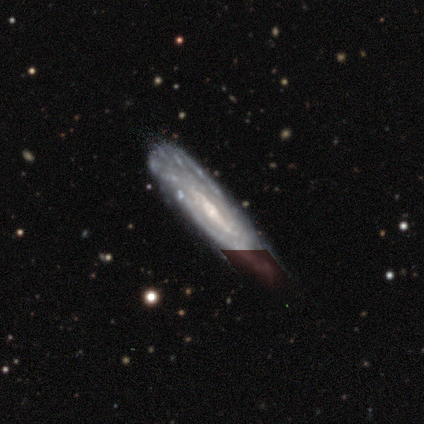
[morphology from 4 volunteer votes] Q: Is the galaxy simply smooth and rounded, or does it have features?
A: featured or disk — 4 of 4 (100%).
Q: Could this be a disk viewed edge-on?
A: no — 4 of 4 (100%).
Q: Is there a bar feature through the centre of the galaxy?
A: weak — 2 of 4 (50%, tied with no).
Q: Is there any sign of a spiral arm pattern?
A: yes — 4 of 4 (100%).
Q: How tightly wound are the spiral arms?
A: tight — 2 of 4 (50%).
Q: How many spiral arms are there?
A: can't tell — 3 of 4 (75%).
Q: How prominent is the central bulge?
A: moderate — 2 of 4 (50%, tied with small).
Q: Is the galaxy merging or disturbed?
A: none — 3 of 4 (75%).